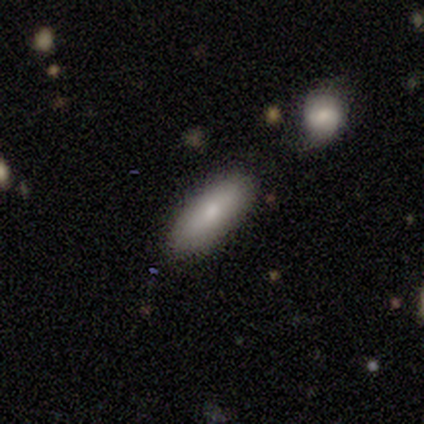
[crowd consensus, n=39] Morphology: type=smooth (82%); roundness=in between (78%); merging=none (87%).